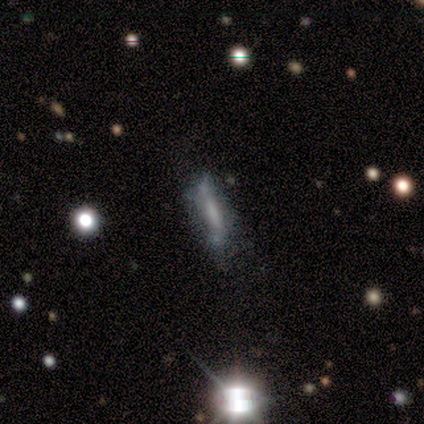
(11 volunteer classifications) Overall: featured or disk (91%). Edge-on disk: yes (70%; no 30%). Edge-on bulge: boxy (43%, tied with none). Merging: none (55%; minor disturbance 27%).